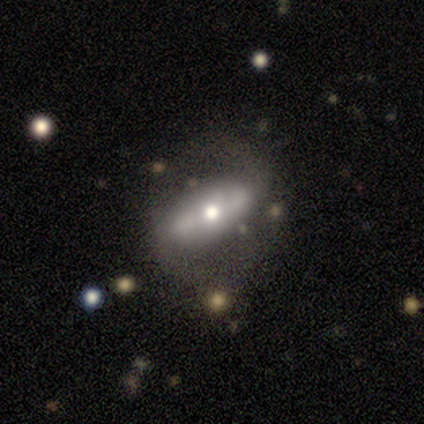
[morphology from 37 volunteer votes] A featured or disk galaxy (54%) with a strong bar (53%), 2 (75%) medium (38%, tied with loose) spiral arms (53%) and a moderate central bulge (73%). Merging: none (41%).